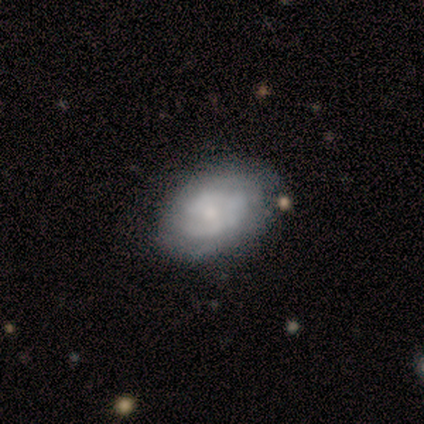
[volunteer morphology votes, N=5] featured or disk 60%, smooth 20%, star or artifact 20%. Down the decision tree: edge-on disk — no (100%); bar — no (100%); spiral arms — yes (100%); spiral arm count — can't tell (67%); spiral winding — tight (67%); bulge size — small (100%); merging — none (100%).